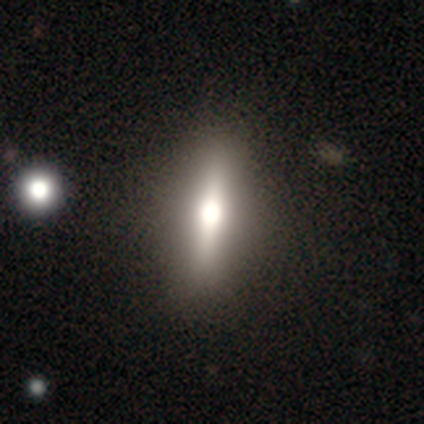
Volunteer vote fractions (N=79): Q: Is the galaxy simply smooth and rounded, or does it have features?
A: smooth — 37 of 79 (47%).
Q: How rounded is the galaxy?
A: cigar-shaped — 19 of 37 (51%).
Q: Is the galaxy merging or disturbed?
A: none — 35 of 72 (49%).